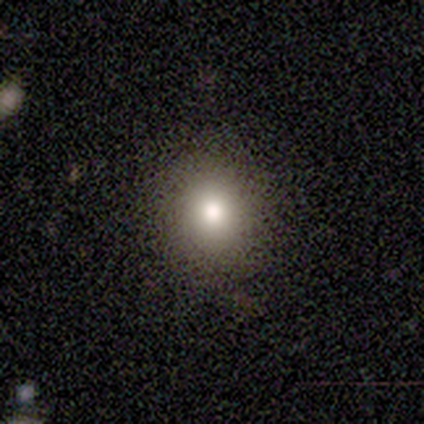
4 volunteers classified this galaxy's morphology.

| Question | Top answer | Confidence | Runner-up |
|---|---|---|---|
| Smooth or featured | smooth | 75% | star or artifact (25%) |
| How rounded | round | 100% | — |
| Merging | none | 67% | minor disturbance (33%) |